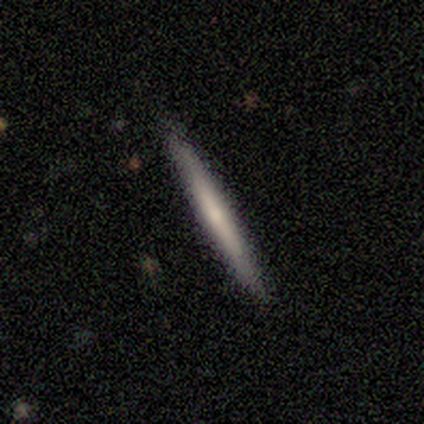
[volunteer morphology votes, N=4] Q: Smooth or featured?
A: smooth (100%)
Q: How rounded?
A: cigar-shaped (100%)
Q: Merging?
A: none (100%)